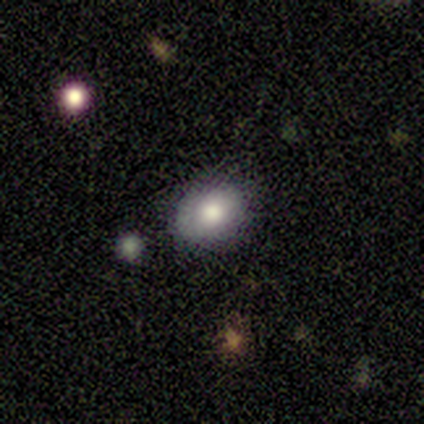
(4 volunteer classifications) This is clearly a smooth galaxy (100%). How rounded: possibly round (50%, tied with in between). Merging: clearly none (100%).